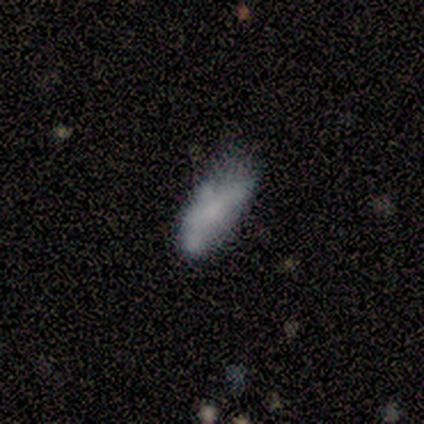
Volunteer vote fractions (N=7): This appears to be a smooth galaxy with no disk features (71%) that is in between round and cigar-shaped (100%). Merging: none (33%, tied with minor disturbance and major disturbance).